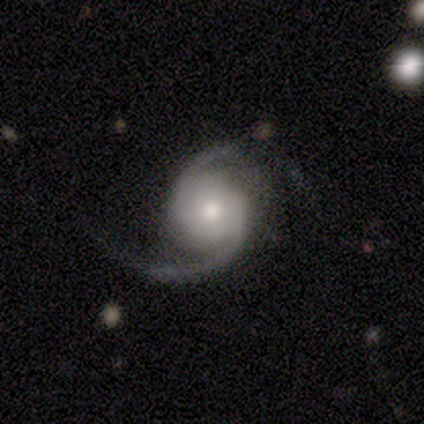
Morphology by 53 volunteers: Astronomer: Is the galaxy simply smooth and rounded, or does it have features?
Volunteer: featured or disk — 96%.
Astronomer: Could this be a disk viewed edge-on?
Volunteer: no — 98%.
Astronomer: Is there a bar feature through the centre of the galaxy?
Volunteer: no — 80%.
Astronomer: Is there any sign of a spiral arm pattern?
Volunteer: yes — 100%.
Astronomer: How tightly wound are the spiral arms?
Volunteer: medium — 46% (runner-up: loose, 34%).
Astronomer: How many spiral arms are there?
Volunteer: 2 — 92%.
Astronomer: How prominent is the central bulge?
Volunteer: moderate — 60%.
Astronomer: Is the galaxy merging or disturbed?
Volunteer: none — 46% (runner-up: minor disturbance, 37%).